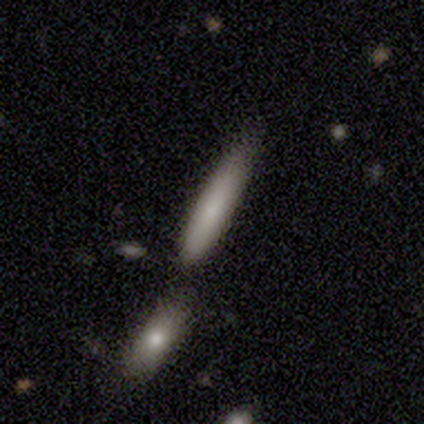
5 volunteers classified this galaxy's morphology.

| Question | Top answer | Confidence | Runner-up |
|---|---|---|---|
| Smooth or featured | smooth | 100% | — |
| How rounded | cigar-shaped | 80% | in between (20%) |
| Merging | none | 40% | tied: minor disturbance (40%) |